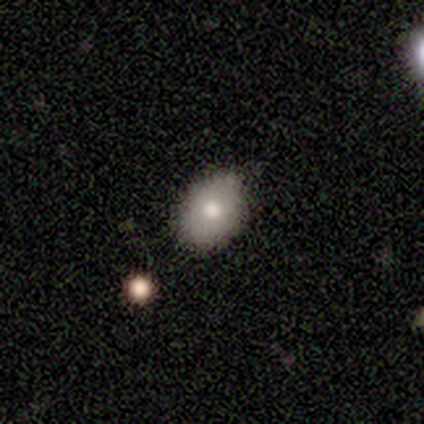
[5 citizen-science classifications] Overall: smooth (60%; featured or disk 40%). How rounded: in between (100%). Merging: none (60%; minor disturbance 40%).